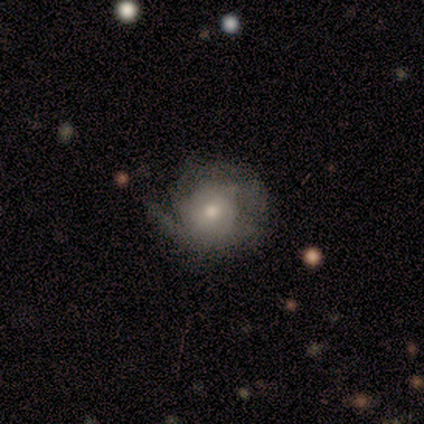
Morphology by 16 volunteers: Volunteers were most divided on "spiral winding": tight: 43%, medium: 29%, loose: 29%. More confident: edge-on disk — no (100%); bulge size — moderate (73%); smooth or featured — featured or disk (69%); bar — no (64%); spiral arms — yes (64%); spiral arm count — 1 (57%); merging — none (56%).